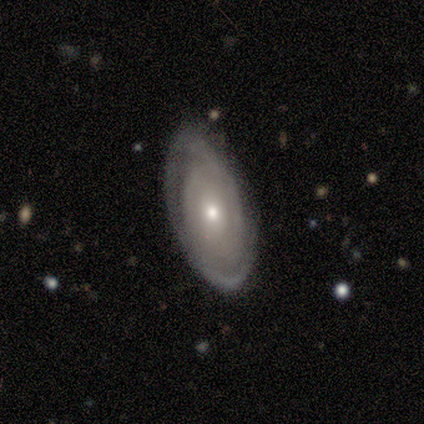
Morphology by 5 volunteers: This is clearly a featured or disk galaxy (100%). It is clearly not viewed edge-on (100%). Bar: clearly no (80%). Spiral arm pattern: clearly yes (100%). Spiral arm count: likely 2 (60%). Spiral winding: marginally tight (40%, tied with loose). Central bulge: clearly small (80%). Merging: clearly none (100%).